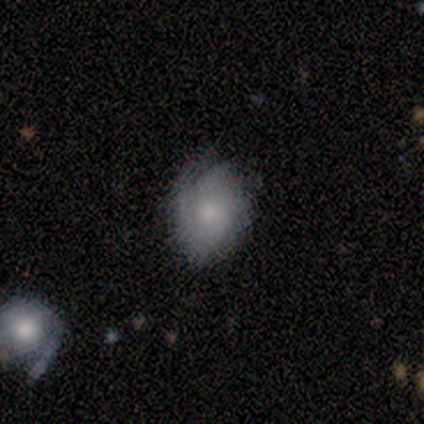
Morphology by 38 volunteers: Smooth or featured? smooth (55%)
How rounded? in between (62%)
Merging? none (57%)